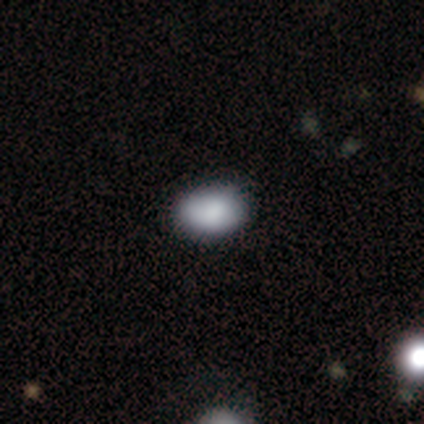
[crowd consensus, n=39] smooth_or_featured: smooth (p=0.85) [alt: featured or disk p=0.10]
how_rounded: in between (p=0.82) [alt: round p=0.15]
merging: none (p=0.89) [alt: minor disturbance p=0.05]